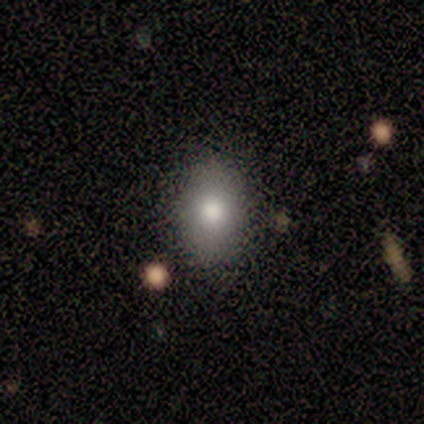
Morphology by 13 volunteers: Smooth or featured? 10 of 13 (77%) said smooth. How rounded? 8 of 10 (80%) said in between. Merging? 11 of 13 (85%) said none.